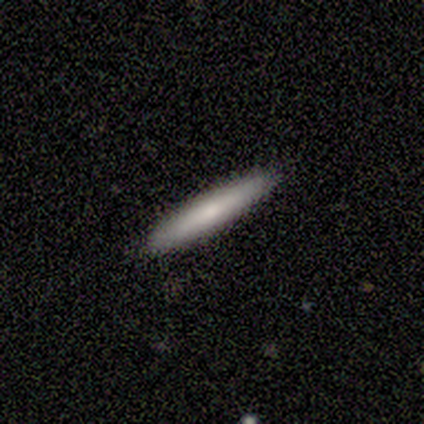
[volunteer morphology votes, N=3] smooth_or_featured: smooth (p=0.67) [alt: featured or disk p=0.33]
how_rounded: cigar-shaped (p=1.00)
merging: none (p=1.00)